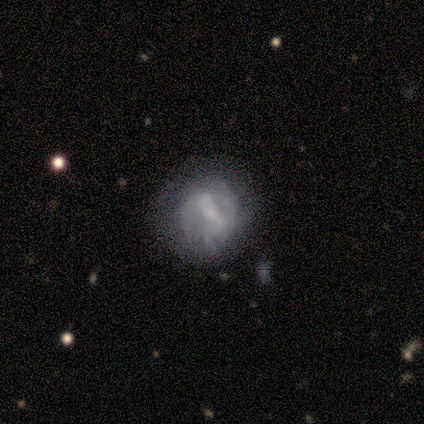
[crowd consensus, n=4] Smooth or featured?
  - featured or disk: 75% *
  - smooth: 25%
  - star or artifact: 0%
Edge-on disk?
  - no: 100% *
  - yes: 0%
Bar?
  - weak: 67% *
  - strong: 33%
  - no: 0%
Spiral arms?
  - yes: 67% *
  - no: 33%
Spiral winding?
  - medium: 100% *
  - tight: 0%
  - loose: 0%
Spiral arm count?
  - can't tell: 100% *
  - 1: 0%
  - 2: 0%
  - 3: 0%
  - 4: 0%
  - more than 4: 0%
Bulge size?
  - moderate: 67% *
  - large: 33%
  - dominant: 0%
  - small: 0%
  - none: 0%
Merging?
  - none: 75% *
  - merger: 25%
  - minor disturbance: 0%
  - major disturbance: 0%